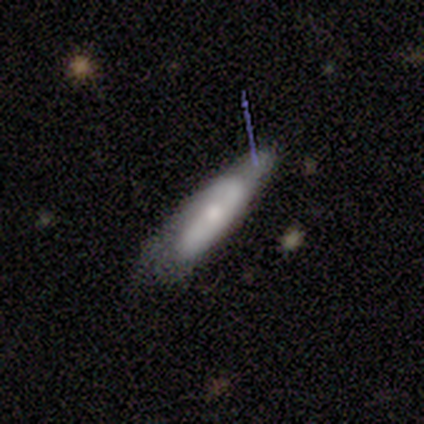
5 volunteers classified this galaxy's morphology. Volunteers were most divided on "smooth or featured": smooth: 60%, featured or disk: 40%, star or artifact: 0%. More confident: how rounded — cigar-shaped (67%); merging — none (60%).